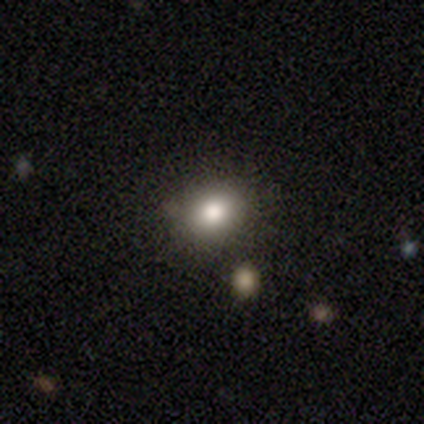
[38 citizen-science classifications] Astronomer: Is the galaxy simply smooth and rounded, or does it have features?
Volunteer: smooth — 74%.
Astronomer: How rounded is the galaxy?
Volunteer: round — 61% (runner-up: in between, 39%).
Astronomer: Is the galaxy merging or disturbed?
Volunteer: none — 88%.